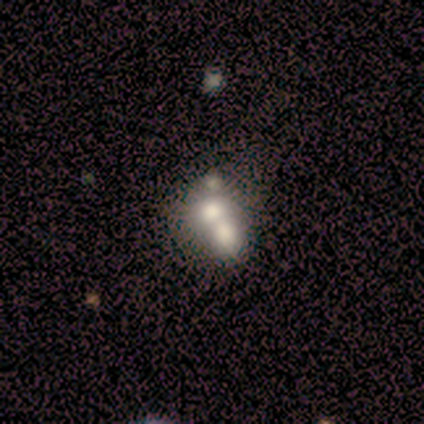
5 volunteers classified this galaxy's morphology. Overall: featured or disk (60%; smooth 40%). Edge-on disk: no (100%). Bar: no (100%). Spiral arms: no (100%). Bulge size: large (67%; none 33%). Merging: merger (60%; none 20%).